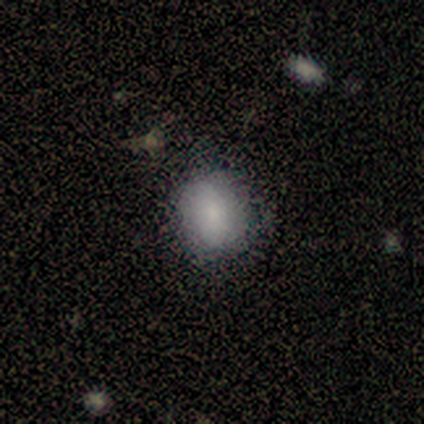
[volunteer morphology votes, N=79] Q: Smooth or featured?
A: smooth (81%); runner-up: featured or disk (13%)
Q: How rounded?
A: round (58%); runner-up: in between (41%)
Q: Merging?
A: none (39%); runner-up: minor disturbance (9%)